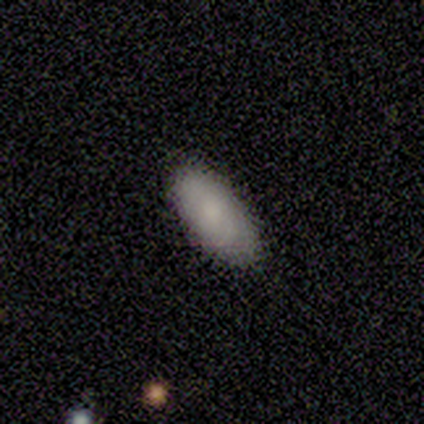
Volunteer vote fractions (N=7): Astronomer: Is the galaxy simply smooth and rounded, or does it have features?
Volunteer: smooth — 43%, tied with featured or disk at 43%.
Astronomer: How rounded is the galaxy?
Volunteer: in between — 100%.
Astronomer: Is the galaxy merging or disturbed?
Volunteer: none — 100%.